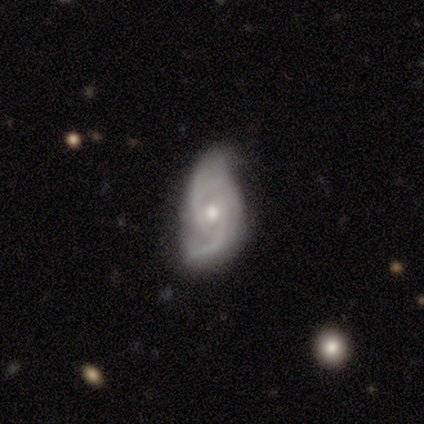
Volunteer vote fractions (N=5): Smooth or featured? 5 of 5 (100%) said featured or disk. Edge-on disk? 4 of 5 (80%) said no. Bar? 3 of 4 (75%) said weak. Spiral arms? 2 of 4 (50%, tied with no) said yes. Spiral winding? 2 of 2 (100%) said tight. Spiral arm count? 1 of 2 (50%, tied with can't tell) said 2. Bulge size? 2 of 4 (50%, tied with small) said moderate. Merging? 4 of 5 (80%) said minor disturbance.